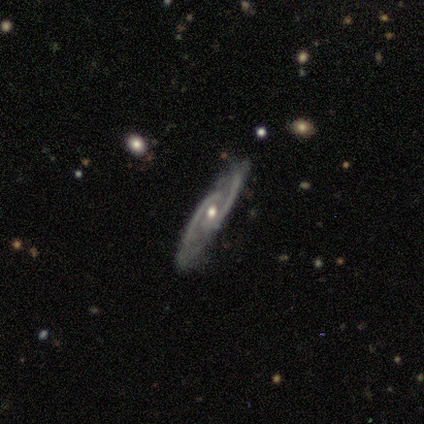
This is clearly a featured or disk galaxy (93%). It is likely not viewed edge-on (79%). Bar: possibly no (59%). Spiral arm pattern: clearly yes (98%). Spiral arm count: clearly 2 (90%). Spiral winding: possibly medium (52%). Central bulge: possibly moderate (56%). Merging: clearly none (83%).